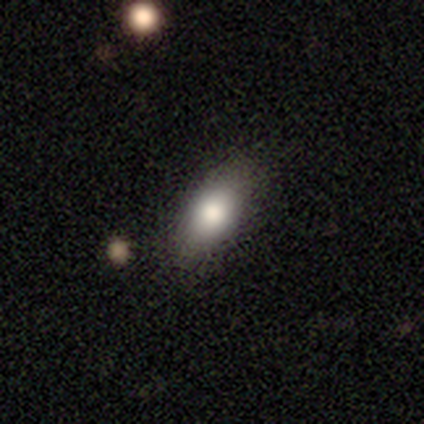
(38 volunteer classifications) Morphology: type=smooth (89%); roundness=in between (79%); merging=none (95%).